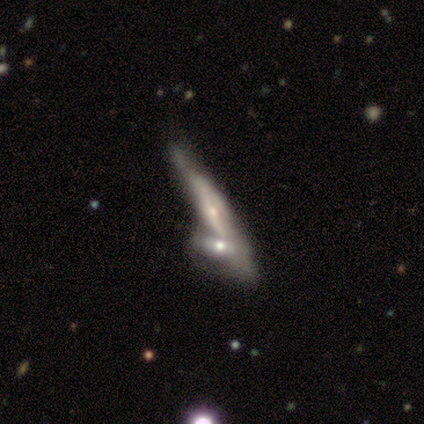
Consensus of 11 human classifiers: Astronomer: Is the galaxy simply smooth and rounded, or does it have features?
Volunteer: featured or disk — 82%.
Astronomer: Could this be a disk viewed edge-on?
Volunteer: yes — 100%.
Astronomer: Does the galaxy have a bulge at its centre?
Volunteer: rounded — 78%.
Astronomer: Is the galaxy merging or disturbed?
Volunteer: merger — 67%.